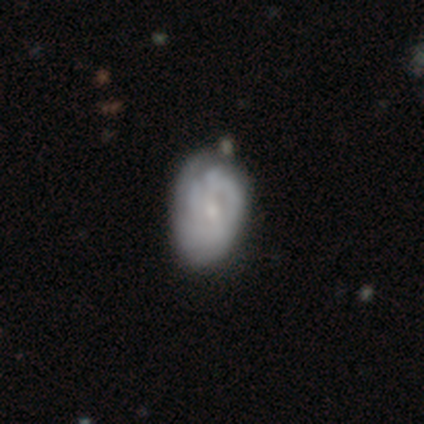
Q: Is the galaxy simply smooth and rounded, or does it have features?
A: featured or disk — 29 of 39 (74%).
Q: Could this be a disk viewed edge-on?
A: no — 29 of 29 (100%).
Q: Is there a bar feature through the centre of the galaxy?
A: weak — 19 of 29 (66%).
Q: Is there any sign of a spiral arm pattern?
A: yes — 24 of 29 (83%).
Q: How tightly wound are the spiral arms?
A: tight — 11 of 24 (46%).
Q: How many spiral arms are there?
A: can't tell — 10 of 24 (42%).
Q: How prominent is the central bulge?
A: small — 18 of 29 (62%).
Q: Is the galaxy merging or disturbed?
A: none — 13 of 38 (34%).